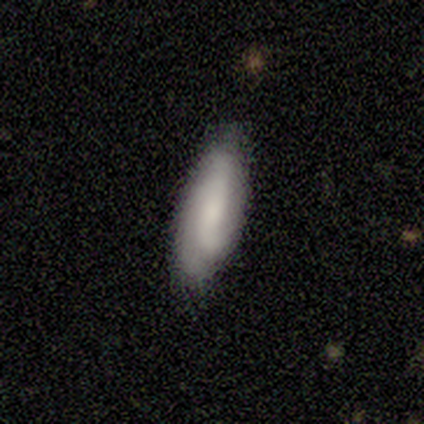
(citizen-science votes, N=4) Q: Smooth or featured?
A: smooth (75%); runner-up: featured or disk (25%)
Q: How rounded?
A: in between (67%); runner-up: cigar-shaped (33%)
Q: Merging?
A: none (100%)